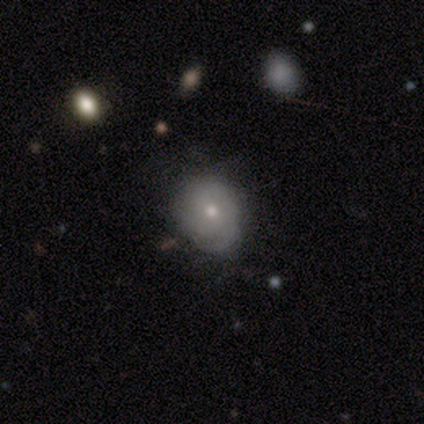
This appears to be a smooth galaxy with no disk features (80%) that is round (50%, tied with in between). Merging: none (80%).